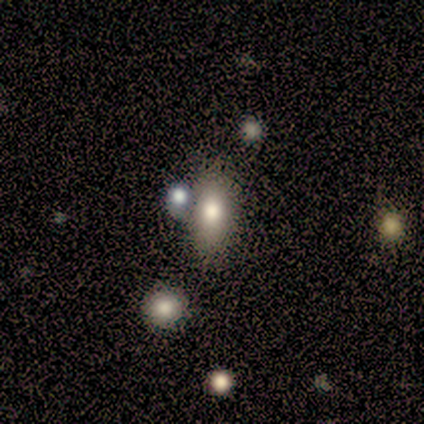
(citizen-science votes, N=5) smooth 80%, featured or disk 20%, star or artifact 0%. Down the decision tree: how rounded — in between (100%); merging — none (60%).